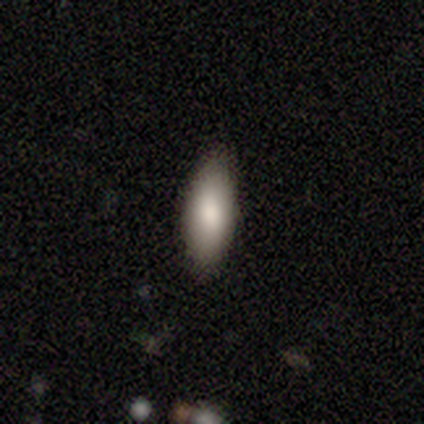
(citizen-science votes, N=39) A smooth galaxy with no disk features (79%) that is in between round and cigar-shaped (68%).

Vote fractions:
- Smooth or featured? smooth: 79% / featured or disk: 18% / star or artifact: 3%
- How rounded? in between: 68% / cigar-shaped: 26% / round: 6%
- Merging? none: 79% / minor disturbance: 16% / major disturbance: 3% / merger: 3%